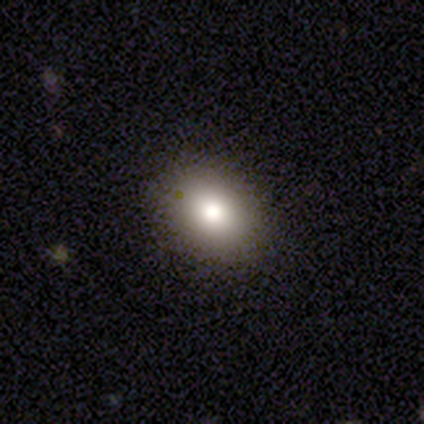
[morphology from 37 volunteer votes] smooth 81%, star or artifact 11%, featured or disk 8%. Down the decision tree: how rounded — in between (77%); merging — none (88%).